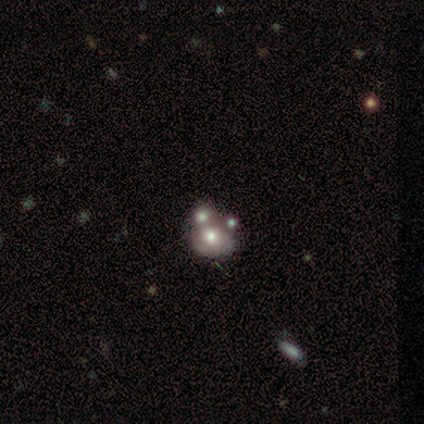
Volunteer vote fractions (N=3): Smooth or featured? smooth (33%, tied with featured or disk and star or artifact)
How rounded? round (100%)
Merging? major disturbance (50%, tied with merger)